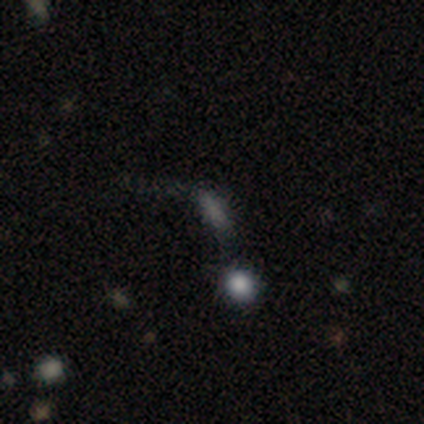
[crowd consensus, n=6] A smooth galaxy with no disk features (83%) that is in between round and cigar-shaped (60%). Merging: minor disturbance (40%, tied with major disturbance).